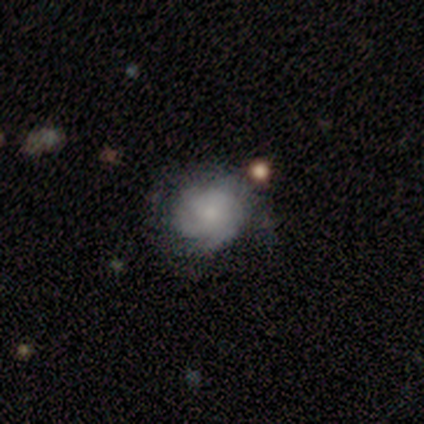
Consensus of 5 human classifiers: Overall: featured or disk (60%; smooth 20%). Edge-on disk: no (100%). Bar: no (100%). Spiral arms: yes (67%; no 33%). Spiral arm count: 2 (50%, tied with can't tell). Spiral winding: tight (100%). Bulge size: small (100%). Merging: none (50%; minor disturbance 25%).